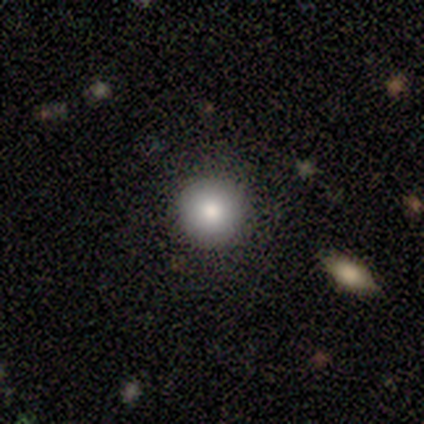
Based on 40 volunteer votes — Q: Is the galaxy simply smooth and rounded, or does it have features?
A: smooth — 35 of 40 (88%).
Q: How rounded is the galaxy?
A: round — 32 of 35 (91%).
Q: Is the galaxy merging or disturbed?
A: none — 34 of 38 (89%).